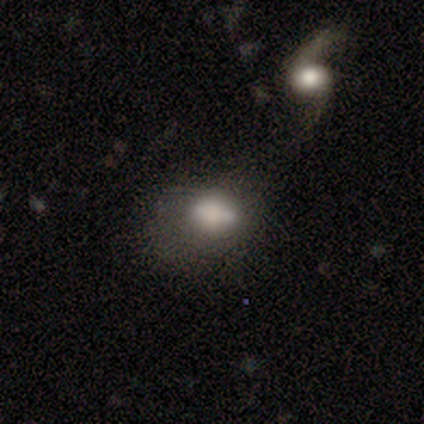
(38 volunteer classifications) smooth_or_featured: smooth (p=0.76) [alt: featured or disk p=0.24]
how_rounded: in between (p=0.79) [alt: round p=0.17]
merging: none (p=0.37) [alt: major disturbance p=0.34]